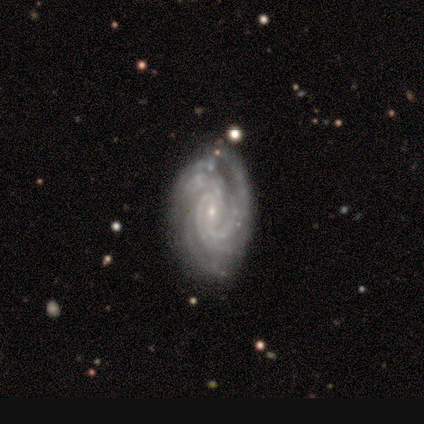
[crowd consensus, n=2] smooth-or-featured: featured or disk: 100% | smooth: 0% | star or artifact: 0%
  disk-edge-on: no: 100% | yes: 0%
    bar: weak: 100% | strong: 0% | no: 0%
    has-spiral-arms: yes: 100% | no: 0%
      spiral-winding: tight: 100% | medium: 0% | loose: 0%
      spiral-arm-count: 4: 50% (tied) | more than 4: 50% (tied) | 1: 0% | 2: 0% | 3: 0% | can't tell: 0%
    bulge-size: small: 100% | dominant: 0% | large: 0% | moderate: 0% | none: 0%
  merging: none: 100% | minor disturbance: 0% | major disturbance: 0% | merger: 0%